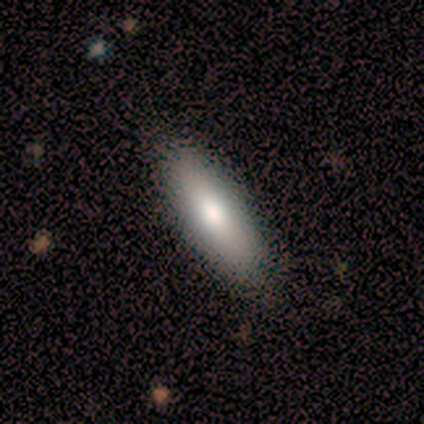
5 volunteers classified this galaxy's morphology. This appears to be a smooth galaxy with no disk features (80%) that is cigar-shaped (75%). Merging: none (100%).